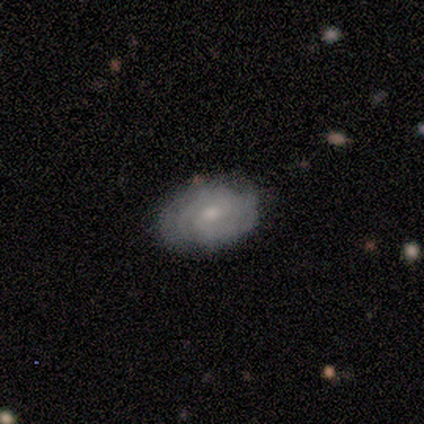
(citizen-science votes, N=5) A smooth galaxy with no disk features (60%) that is in between round and cigar-shaped (100%).

Vote fractions:
- Smooth or featured? smooth: 60% / featured or disk: 40% / star or artifact: 0%
- How rounded? in between: 100% / round: 0% / cigar-shaped: 0%
- Merging? none: 60% / minor disturbance: 40% / major disturbance: 0% / merger: 0%